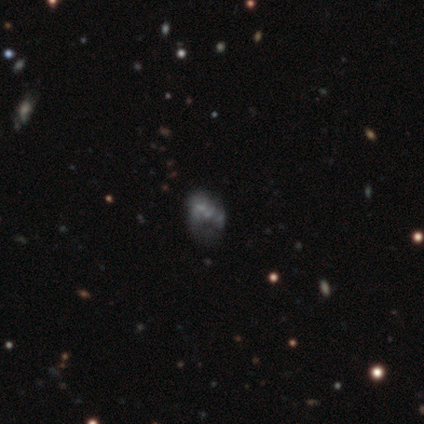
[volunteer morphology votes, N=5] A featured or disk galaxy (80%) with no bar (67%), no spiral arms (100%) and no central bulge (100%). Merging: major disturbance (40%, tied with merger).